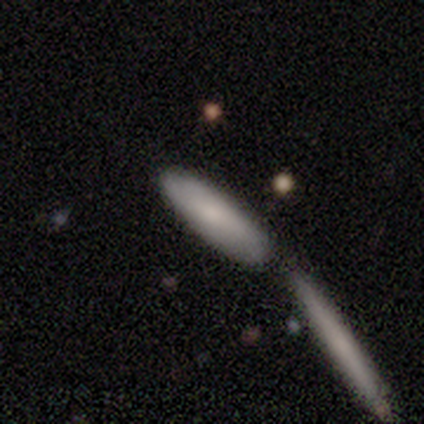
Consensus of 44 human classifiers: Overall: smooth (70%). How rounded: cigar-shaped (61%; in between 35%). Merging: merger (50%; none 31%).